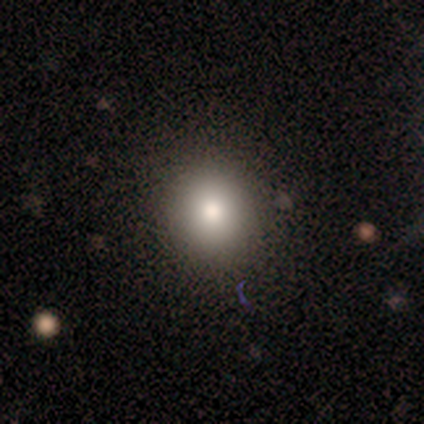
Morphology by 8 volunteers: Smooth or featured? 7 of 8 (88%) said smooth. How rounded? 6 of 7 (86%) said round. Merging? 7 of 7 (100%) said none.